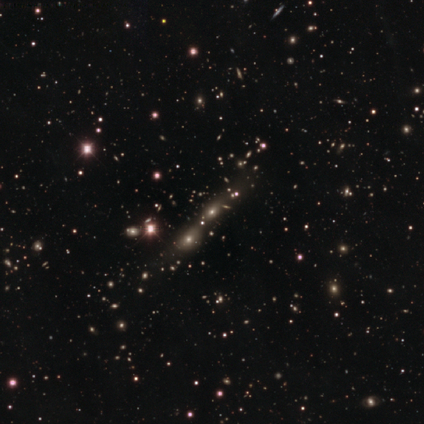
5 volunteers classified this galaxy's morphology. smooth-or-featured: smooth: 60% | star or artifact: 40% | featured or disk: 0%
  how-rounded: in between: 67% | cigar-shaped: 33% | round: 0%
  merging: merger: 100% | none: 0% | minor disturbance: 0% | major disturbance: 0%